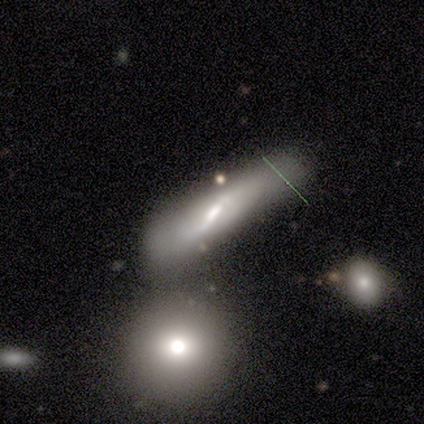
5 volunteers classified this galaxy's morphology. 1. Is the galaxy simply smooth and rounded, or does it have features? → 60% featured or disk, 40% smooth, 0% star or artifact.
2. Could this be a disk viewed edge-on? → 67% no, 33% yes.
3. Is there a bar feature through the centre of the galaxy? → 100% weak, 0% strong, 0% no.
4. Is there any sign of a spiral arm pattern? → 100% yes, 0% no.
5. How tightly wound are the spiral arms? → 50% tight (tied), 50% loose (tied), 0% medium.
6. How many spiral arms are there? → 50% 2 (tied), 50% can't tell (tied), 0% 1, 0% 3, 0% 4, 0% more than 4.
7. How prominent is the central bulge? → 100% moderate, 0% dominant, 0% large, 0% small, 0% none.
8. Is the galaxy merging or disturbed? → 60% minor disturbance, 40% none, 0% major disturbance, 0% merger.